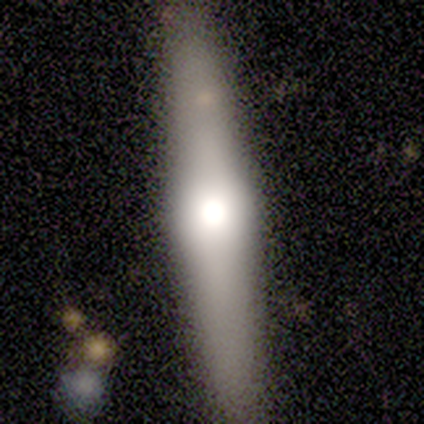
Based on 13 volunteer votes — smooth_or_featured: smooth (p=0.54) [alt: featured or disk p=0.46]
how_rounded: cigar-shaped (p=0.86) [alt: in between p=0.14]
merging: none (p=0.77) [alt: minor disturbance p=0.15]